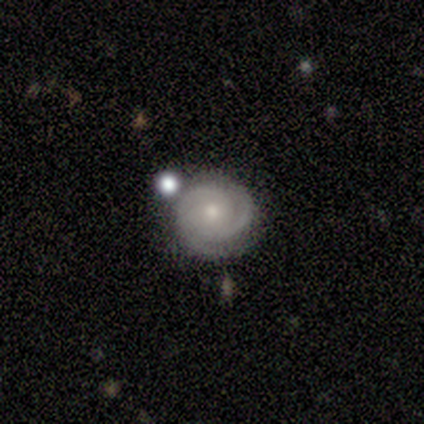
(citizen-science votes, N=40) smooth_or_featured: featured or disk (p=0.85) [alt: smooth p=0.12]
disk_edge_on: no (p=1.00)
bar: no (p=0.71) [alt: weak p=0.29]
has_spiral_arms: yes (p=0.94) [alt: no p=0.06]
spiral_winding: tight (p=0.66) [alt: medium p=0.28]
spiral_arm_count: 2 (p=0.59) [alt: can't tell p=0.25]
bulge_size: small (p=0.56) [alt: moderate p=0.41]
merging: none (p=0.72) [alt: merger p=0.13]